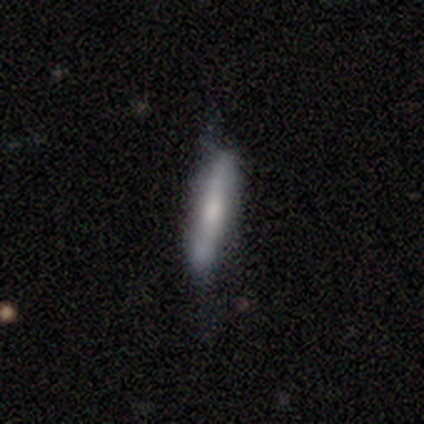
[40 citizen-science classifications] smooth-or-featured: smooth: 62% | featured or disk: 38% | star or artifact: 0%
  how-rounded: cigar-shaped: 84% | in between: 16% | round: 0%
  merging: none: 55% | minor disturbance: 32% | major disturbance: 10% | merger: 2%